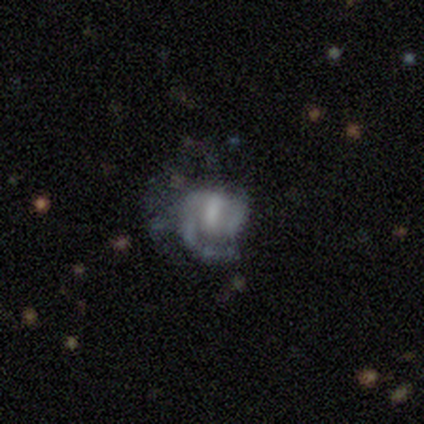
Smooth or featured? featured or disk (70%)
Edge-on disk? no (100%)
Bar? weak (43%, tied with no)
Spiral arms? yes (57%)
Spiral winding? tight (75%)
Spiral arm count? can't tell (75%)
Bulge size? none (43%)
Merging? none (40%, tied with minor disturbance)